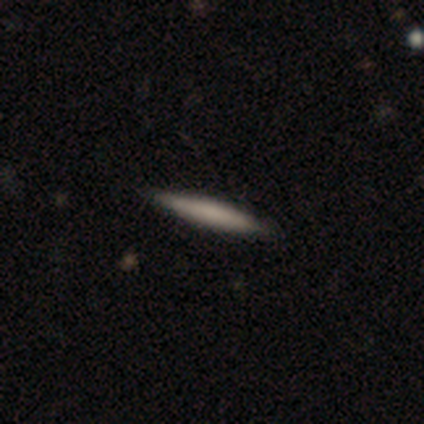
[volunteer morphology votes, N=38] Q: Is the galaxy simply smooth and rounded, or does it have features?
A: smooth — 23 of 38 (61%).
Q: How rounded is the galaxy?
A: cigar-shaped — 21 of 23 (91%).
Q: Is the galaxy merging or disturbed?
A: none — 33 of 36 (92%).